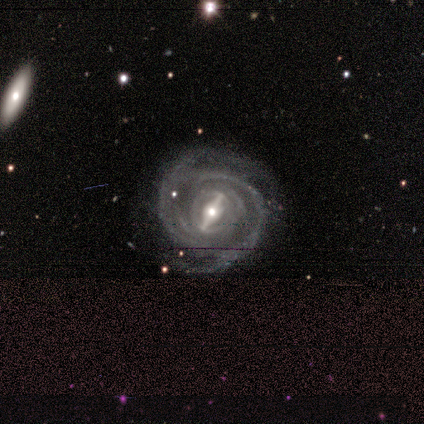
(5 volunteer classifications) Smooth or featured: featured or disk — 100%
Edge-on disk: no — 100%
Bar: strong — 80% (weak — 20%)
Spiral arms: yes — 100%
Spiral winding: tight — 60% (medium — 40%)
Spiral arm count: 2 — 40% (tied with can't tell — 40%)
Bulge size: moderate — 60% (small — 40%)
Merging: none — 60% (minor disturbance — 40%)